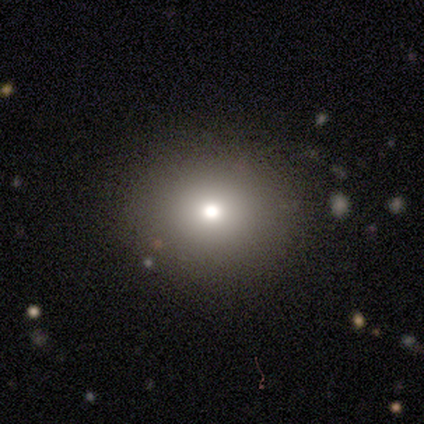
A smooth galaxy with no disk features (71%) that is round (89%).

Vote fractions:
- Smooth or featured? smooth: 71% / star or artifact: 16% / featured or disk: 13%
- How rounded? round: 89% / in between: 11% / cigar-shaped: 0%
- Merging? none: 75% / minor disturbance: 3% / merger: 3% / major disturbance: 0%